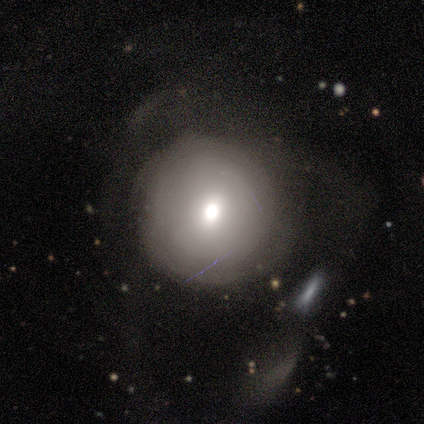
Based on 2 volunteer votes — This appears to be a smooth galaxy with no disk features (100%) that is round (100%). Merging: minor disturbance (50%, tied with major disturbance).